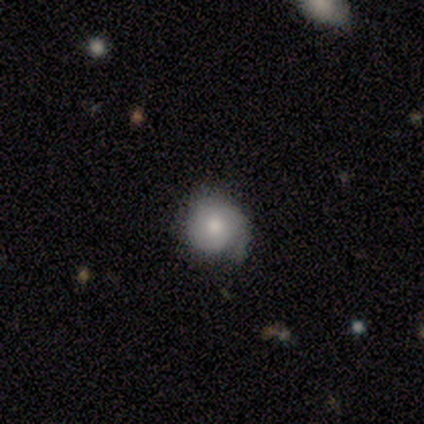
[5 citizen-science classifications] smooth 80%, featured or disk 20%, star or artifact 0%. Down the decision tree: how rounded — round (75%); merging — minor disturbance (100%).